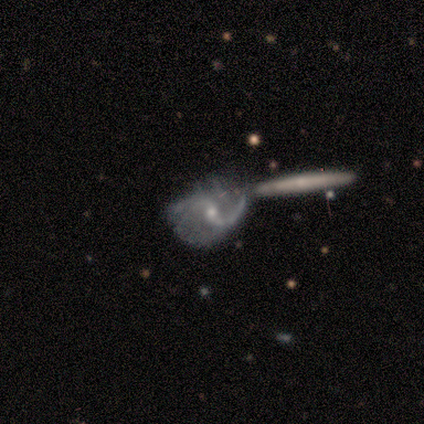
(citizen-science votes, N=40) Volunteers were most divided on "bar" (2-way tie): weak: 41%, no: 41%, strong: 18%. Remaining: smooth or featured — featured or disk (100%); spiral arms — yes (91%); edge-on disk — no (85%); spiral arm count — 2 (81%); spiral winding — loose (71%); bulge size — moderate (50%); merging — merger (35%).